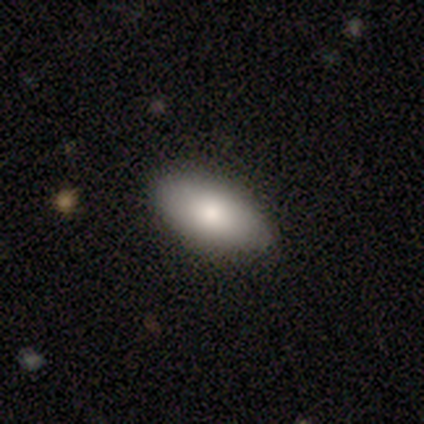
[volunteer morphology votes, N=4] smooth 75%, featured or disk 25%, star or artifact 0%. Down the decision tree: how rounded — in between (100%); merging — none (100%).